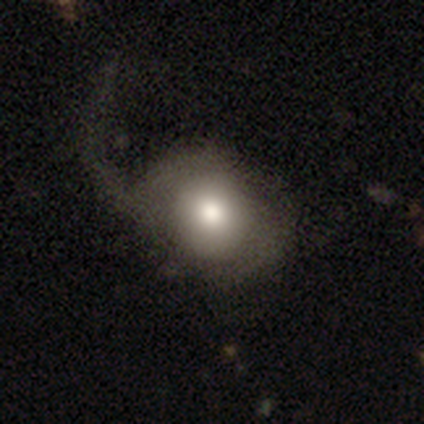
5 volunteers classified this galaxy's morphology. Overall: featured or disk (60%; smooth 40%). Edge-on disk: no (67%; yes 33%). Bar: no (100%). Spiral arms: yes (50%, tied with no). Spiral arm count: 1 (100%). Spiral winding: loose (100%). Bulge size: moderate (100%). Merging: major disturbance (80%).